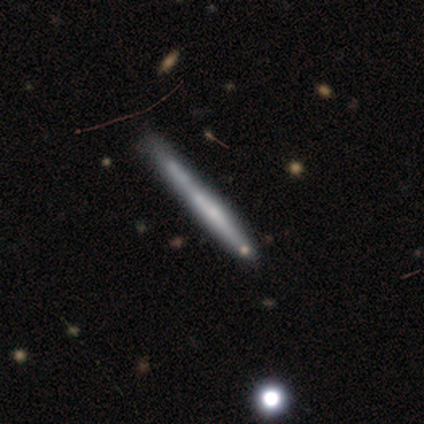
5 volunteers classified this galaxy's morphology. featured or disk 60%, smooth 20%, star or artifact 20%. Down the decision tree: edge-on disk — yes (100%); edge-on bulge — none (100%); merging — none (50%, tied with minor disturbance).